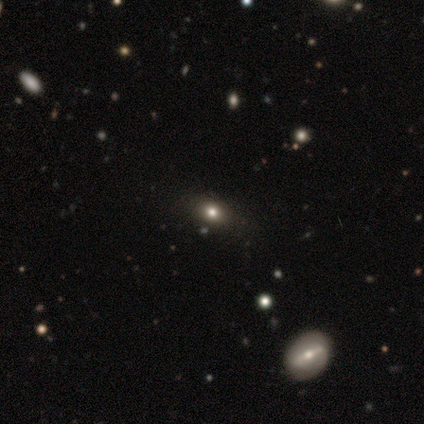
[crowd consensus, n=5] smooth 80%, star or artifact 20%, featured or disk 0%. Down the decision tree: how rounded — in between (100%); merging — none (100%).